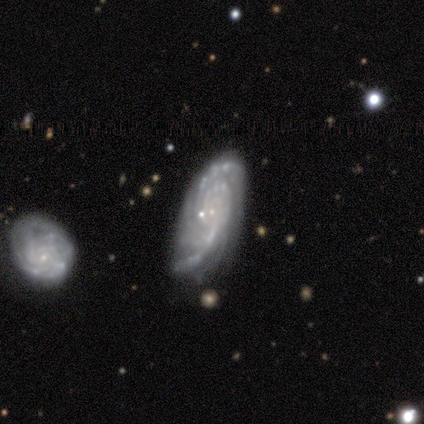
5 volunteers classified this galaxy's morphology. smooth-or-featured: featured or disk: 100% | smooth: 0% | star or artifact: 0%
  disk-edge-on: no: 100% | yes: 0%
    bar: no: 80% | weak: 20% | strong: 0%
    has-spiral-arms: yes: 100% | no: 0%
      spiral-winding: tight: 80% | loose: 20% | medium: 0%
      spiral-arm-count: 4: 60% | 2: 20% | more than 4: 20% | 1: 0% | 3: 0% | can't tell: 0%
    bulge-size: small: 80% | moderate: 20% | dominant: 0% | large: 0% | none: 0%
  merging: minor disturbance: 60% | none: 40% | major disturbance: 0% | merger: 0%